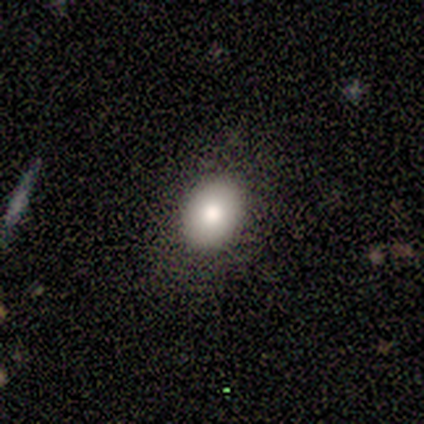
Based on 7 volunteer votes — This appears to be a smooth galaxy with no disk features (57%) that is in between round and cigar-shaped (75%). Merging: none (100%).